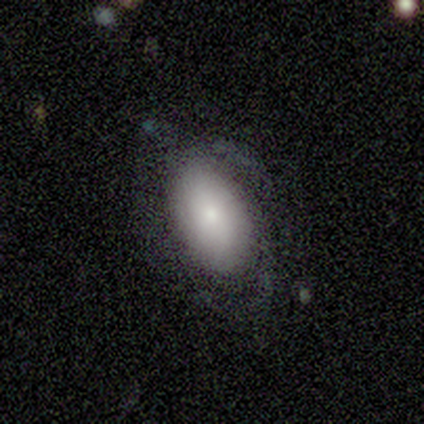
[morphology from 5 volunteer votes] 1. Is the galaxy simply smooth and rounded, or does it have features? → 80% smooth, 20% featured or disk, 0% star or artifact.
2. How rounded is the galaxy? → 100% in between, 0% round, 0% cigar-shaped.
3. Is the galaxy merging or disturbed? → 60% minor disturbance, 20% none, 20% major disturbance, 0% merger.